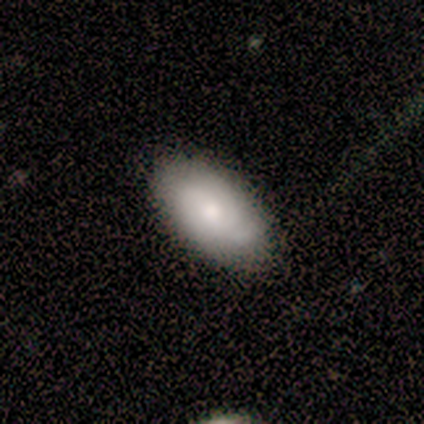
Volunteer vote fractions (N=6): smooth_or_featured: featured or disk (p=0.50) [alt: smooth p=0.33]
disk_edge_on: no (p=1.00)
bar: no (p=1.00)
has_spiral_arms: no (p=0.67) [alt: yes p=0.33]
bulge_size: small (p=0.67) [alt: moderate p=0.33]
merging: none (p=0.40) [tied with: minor disturbance p=0.40]